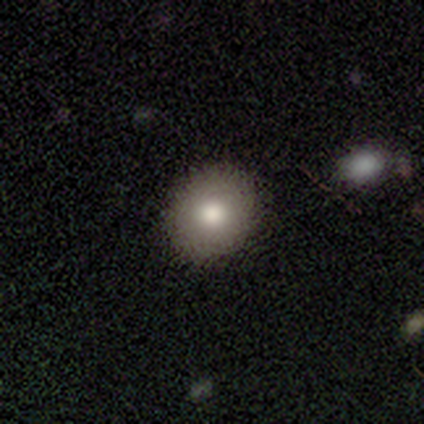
Overall: smooth (100%). How rounded: round (75%). Merging: none (75%).